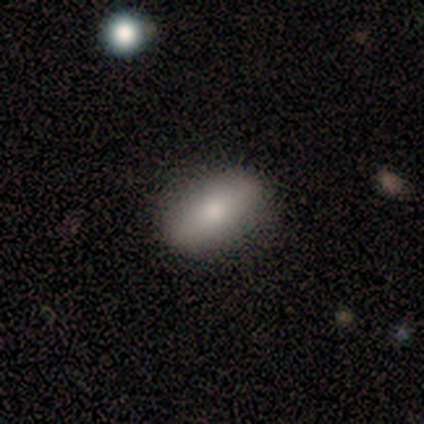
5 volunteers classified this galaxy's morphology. Smooth or featured?
  - smooth: 80% *
  - featured or disk: 20%
  - star or artifact: 0%
How rounded?
  - in between: 75% *
  - round: 25%
  - cigar-shaped: 0%
Merging?
  - none: 100% *
  - minor disturbance: 0%
  - major disturbance: 0%
  - merger: 0%